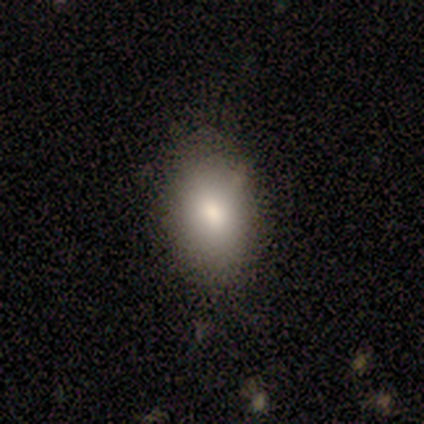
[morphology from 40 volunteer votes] smooth_or_featured: smooth (p=0.90) [alt: featured or disk p=0.07]
how_rounded: in between (p=0.97) [alt: round p=0.03]
merging: none (p=0.56) [alt: minor disturbance p=0.05]